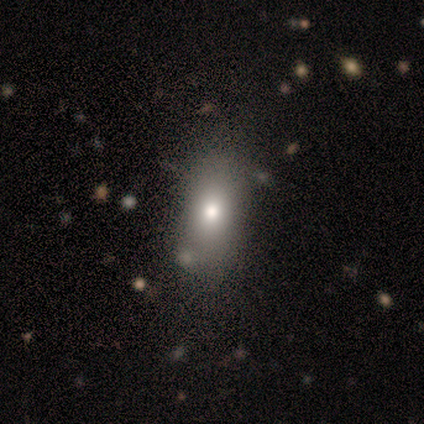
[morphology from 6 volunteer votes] Q: Smooth or featured?
A: smooth (67%); runner-up: star or artifact (33%)
Q: How rounded?
A: in between (75%); runner-up: round (25%)
Q: Merging?
A: none (100%)